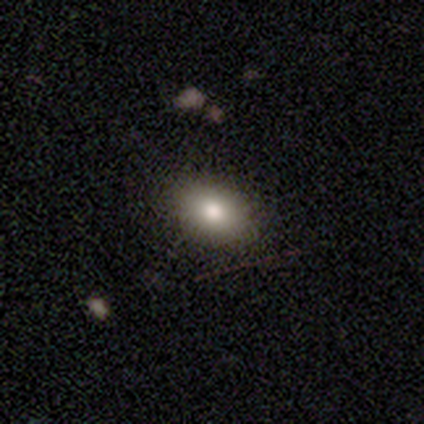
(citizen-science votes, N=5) Smooth or featured? 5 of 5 (100%) said smooth. How rounded? 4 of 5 (80%) said in between. Merging? 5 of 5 (100%) said none.